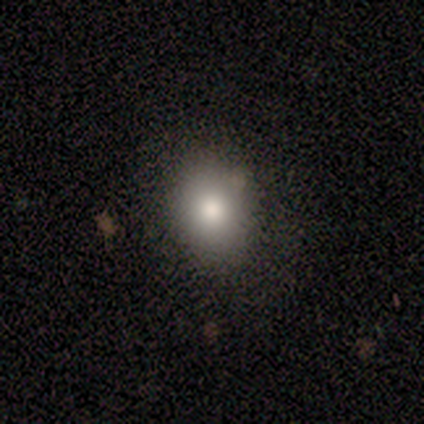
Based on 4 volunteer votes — Smooth or featured? 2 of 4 (50%, tied with featured or disk) said smooth. How rounded? 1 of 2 (50%, tied with in between) said round. Merging? 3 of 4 (75%) said none.